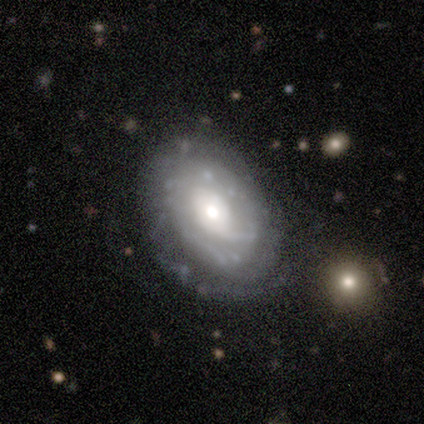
This appears to be a featured or disk galaxy (100%) with a weak bar (60%), medium (60%) spiral arms (100%) and a moderate central bulge (60%). Merging: none (100%).